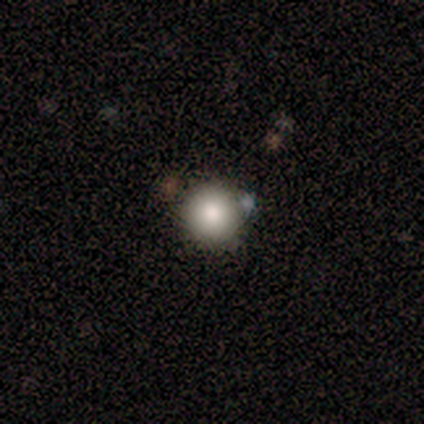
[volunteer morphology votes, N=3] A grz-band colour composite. It shows a smooth galaxy with no disk features (67%) that is round (100%). Merging: none (100%).